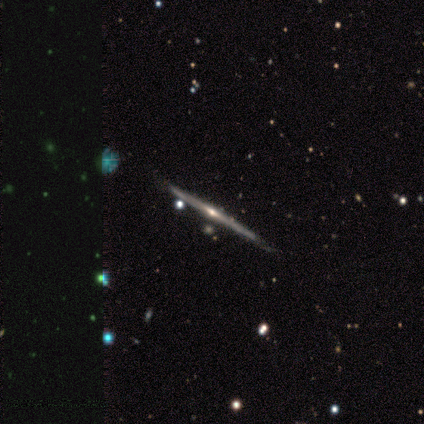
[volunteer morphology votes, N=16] featured or disk 94%, smooth 6%, star or artifact 0%. Down the decision tree: edge-on disk — yes (100%); edge-on bulge — rounded (60%); merging — none (88%).